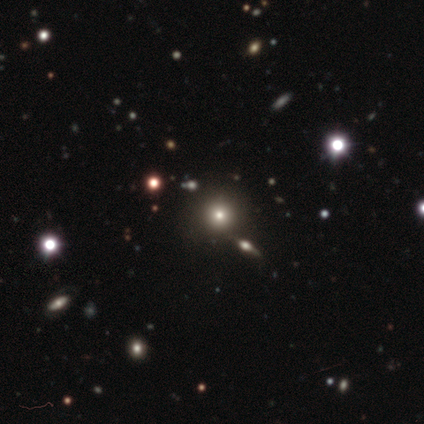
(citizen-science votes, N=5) smooth_or_featured: smooth (p=0.60) [alt: star or artifact p=0.40]
how_rounded: round (p=1.00)
merging: none (p=0.67) [alt: minor disturbance p=0.33]